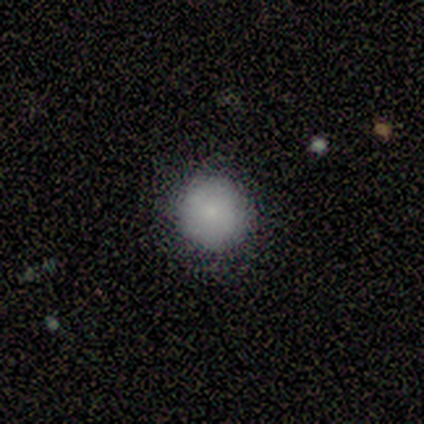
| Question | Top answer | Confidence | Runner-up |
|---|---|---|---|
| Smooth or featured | smooth | 75% | star or artifact (25%) |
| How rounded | round | 100% | — |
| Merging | none | 67% | minor disturbance (33%) |